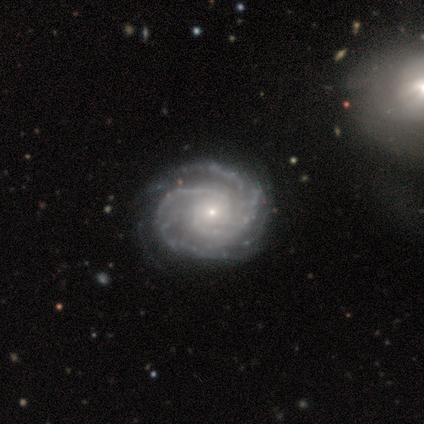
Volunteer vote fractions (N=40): This is clearly a featured or disk galaxy (92%). It is clearly not viewed edge-on (97%). Bar: clearly no (89%). Spiral arm pattern: clearly yes (97%). Spiral arm count: marginally 2 (40%). Spiral winding: likely tight (71%). Central bulge: clearly small (83%). Merging: possibly none (51%).